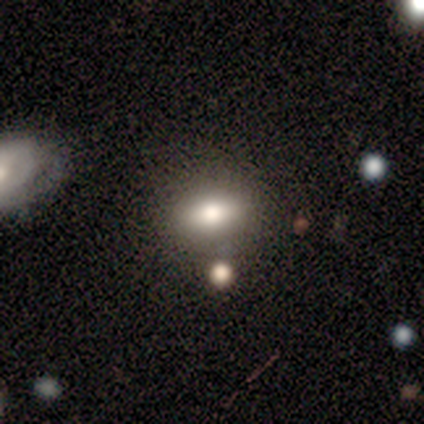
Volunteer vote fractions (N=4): star or artifact 50%, smooth 25%, featured or disk 25%.